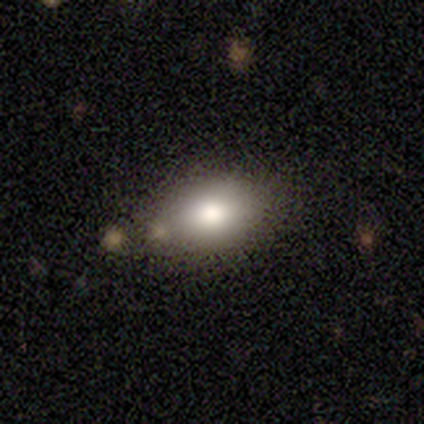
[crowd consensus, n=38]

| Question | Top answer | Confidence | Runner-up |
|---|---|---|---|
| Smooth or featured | smooth | 82% | featured or disk (13%) |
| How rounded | in between | 71% | round (29%) |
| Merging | none | 81% | minor disturbance (11%) |